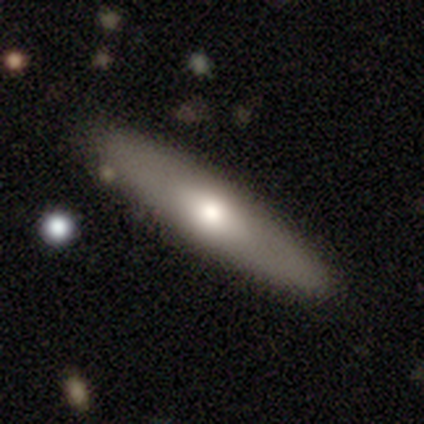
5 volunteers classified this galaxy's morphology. Smooth or featured? smooth (60%)
How rounded? round (33%, tied with in between and cigar-shaped)
Merging? none (80%)